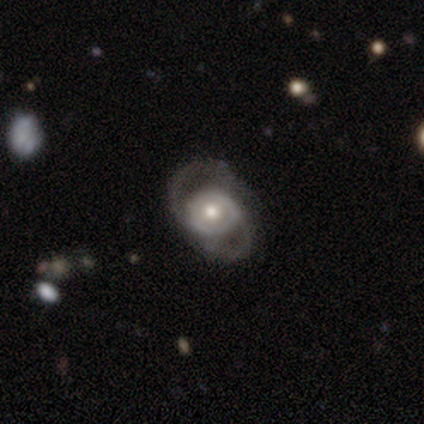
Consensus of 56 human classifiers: Smooth or featured?
  - featured or disk: 89% *
  - smooth: 11%
  - star or artifact: 0%
Edge-on disk?
  - no: 98% *
  - yes: 2%
Bar?
  - no: 73% *
  - weak: 18%
  - strong: 8%
Spiral arms?
  - yes: 88% *
  - no: 12%
Spiral winding?
  - medium: 49% *
  - tight: 28%
  - loose: 23%
Spiral arm count?
  - 2: 81% *
  - can't tell: 16%
  - 3: 2%
  - 1: 0%
  - 4: 0%
  - more than 4: 0%
Bulge size?
  - moderate: 82% *
  - small: 12%
  - large: 4%
  - dominant: 2%
  - none: 0%
Merging?
  - none: 39% *
  - major disturbance: 32%
  - minor disturbance: 27%
  - merger: 2%